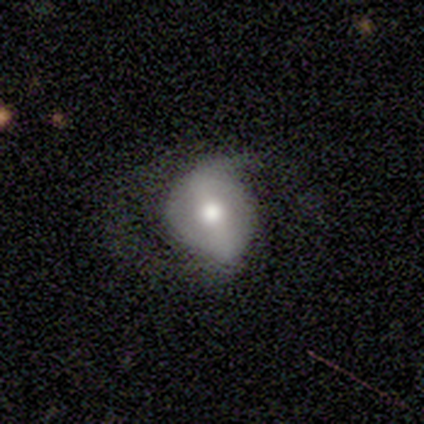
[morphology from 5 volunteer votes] This appears to be a featured or disk galaxy (60%) with a strong bar (67%), 2 (100%) loose (100%) spiral arms (67%) and a large central bulge (33%, tied with moderate and small). Merging: none (40%, tied with minor disturbance).